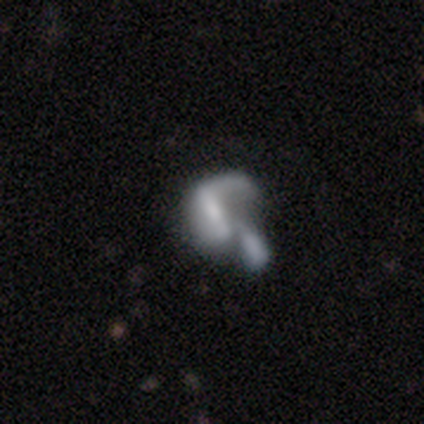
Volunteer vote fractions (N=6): Volunteers were most divided on "spiral arms" (2-way tie): yes: 50%, no: 50%. More confident: edge-on disk — no (100%); spiral winding — loose (100%); spiral arm count — 1 (100%); bar — strong (75%); bulge size — moderate (75%); smooth or featured — featured or disk (67%); merging — merger (60%).